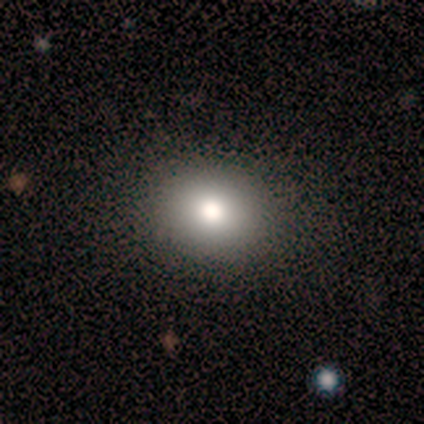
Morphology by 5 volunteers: A smooth galaxy with no disk features (80%) that is round (75%).

Vote fractions:
- Smooth or featured? smooth: 80% / featured or disk: 20% / star or artifact: 0%
- How rounded? round: 75% / in between: 25% / cigar-shaped: 0%
- Merging? none: 100% / minor disturbance: 0% / major disturbance: 0% / merger: 0%